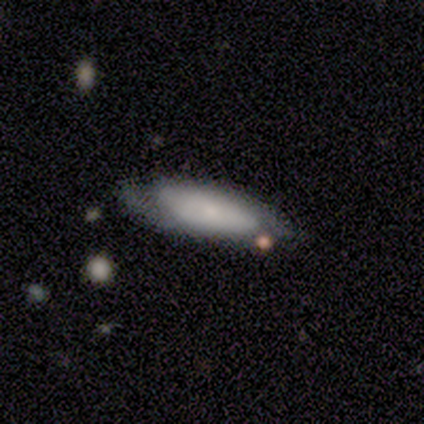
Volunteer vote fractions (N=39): Smooth or featured: smooth — 56% (featured or disk — 36%)
How rounded: in between — 73% (cigar-shaped — 27%)
Merging: none — 61% (minor disturbance — 25%)